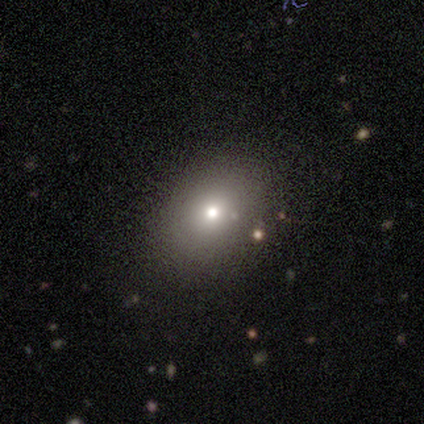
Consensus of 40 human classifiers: Smooth or featured? smooth (92%)
How rounded? in between (62%)
Merging? none (62%)